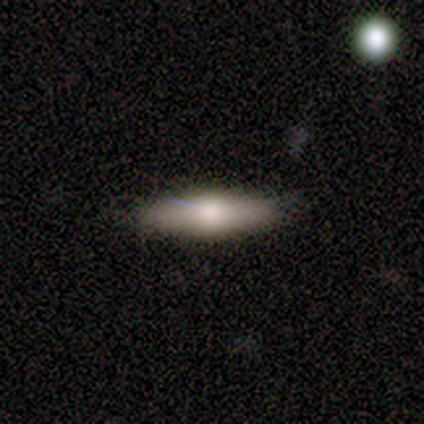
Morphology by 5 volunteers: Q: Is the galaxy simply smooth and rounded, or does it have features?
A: smooth — 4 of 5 (80%).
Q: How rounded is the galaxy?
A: cigar-shaped — 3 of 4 (75%).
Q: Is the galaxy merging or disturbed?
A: none — 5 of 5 (100%).